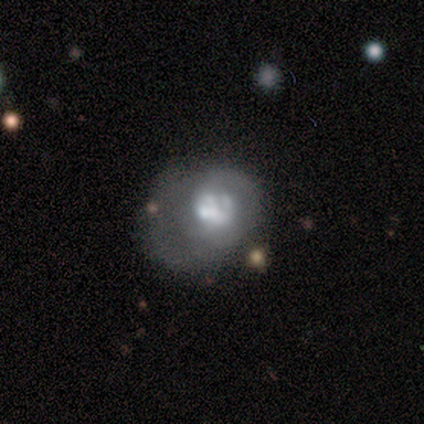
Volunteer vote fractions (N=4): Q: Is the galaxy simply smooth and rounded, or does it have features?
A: smooth — 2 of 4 (50%, tied with featured or disk).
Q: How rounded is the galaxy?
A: round — 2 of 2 (100%).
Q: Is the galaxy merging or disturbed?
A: merger — 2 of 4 (50%).